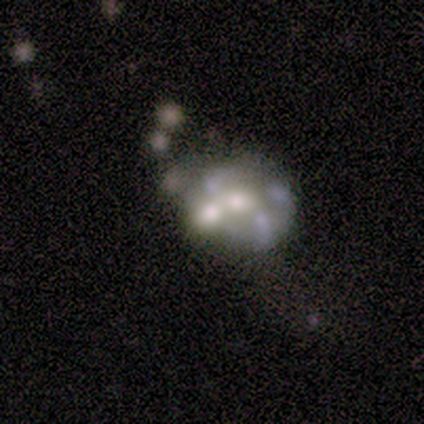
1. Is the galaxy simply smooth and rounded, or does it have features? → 100% featured or disk, 0% smooth, 0% star or artifact.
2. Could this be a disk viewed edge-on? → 100% no, 0% yes.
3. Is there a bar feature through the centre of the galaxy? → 60% no, 40% weak, 0% strong.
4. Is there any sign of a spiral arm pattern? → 80% no, 20% yes.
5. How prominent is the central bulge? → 40% small, 20% large, 20% moderate, 20% none, 0% dominant.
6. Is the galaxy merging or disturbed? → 60% merger, 20% minor disturbance, 20% major disturbance, 0% none.